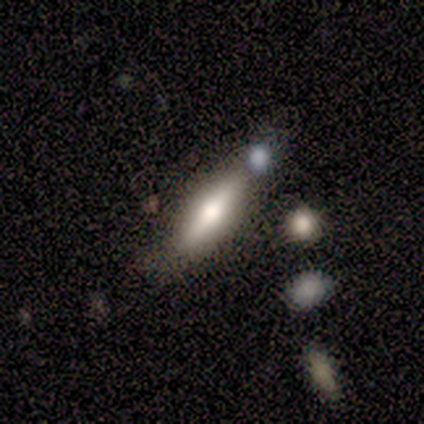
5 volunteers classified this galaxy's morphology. type=smooth (60%); roundness=cigar-shaped (67%); merging=none (40%, tied with merger).